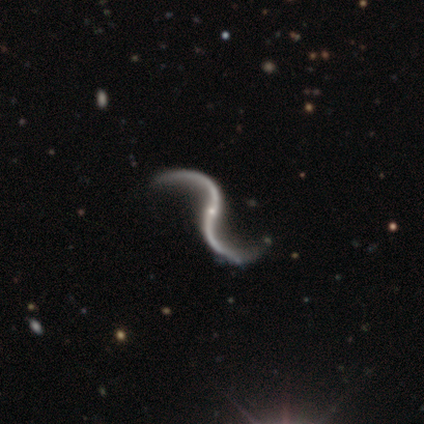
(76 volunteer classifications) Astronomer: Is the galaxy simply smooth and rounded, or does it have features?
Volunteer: featured or disk — 99%.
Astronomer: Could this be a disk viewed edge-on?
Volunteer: no — 97%.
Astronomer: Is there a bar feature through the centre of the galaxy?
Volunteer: no — 63%.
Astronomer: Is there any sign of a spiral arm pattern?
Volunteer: yes — 99%.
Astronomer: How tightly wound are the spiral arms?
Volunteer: loose — 94%.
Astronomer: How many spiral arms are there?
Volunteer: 2 — 96%.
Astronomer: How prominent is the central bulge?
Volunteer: small — 88%.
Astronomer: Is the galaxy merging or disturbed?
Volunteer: none — 39%.